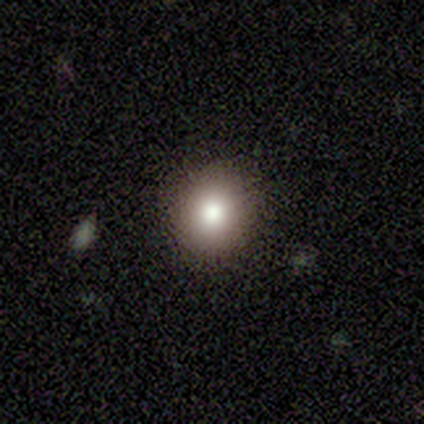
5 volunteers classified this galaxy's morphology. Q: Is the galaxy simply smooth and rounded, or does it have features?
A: smooth — 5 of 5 (100%).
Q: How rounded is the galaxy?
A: round — 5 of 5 (100%).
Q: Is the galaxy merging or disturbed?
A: none — 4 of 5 (80%).